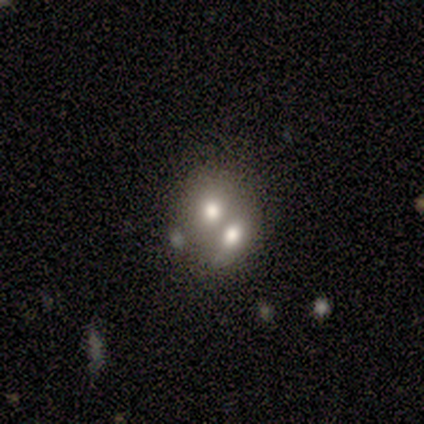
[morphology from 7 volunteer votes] Smooth or featured: smooth — 71% (featured or disk — 29%)
How rounded: in between — 80% (round — 20%)
Merging: merger — 86% (none — 14%)